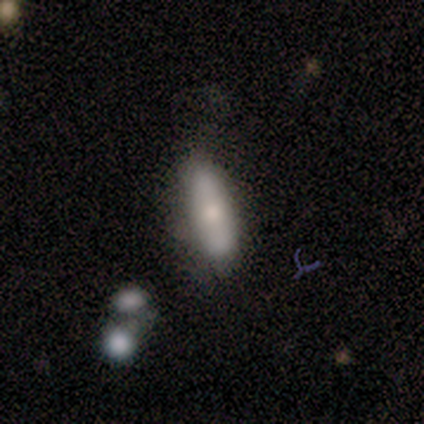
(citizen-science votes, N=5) smooth_or_featured: smooth (p=1.00)
how_rounded: in between (p=0.40) [tied with: cigar-shaped p=0.40]
merging: none (p=0.80) [alt: major disturbance p=0.20]